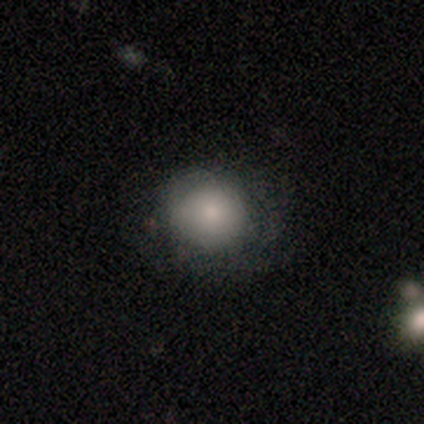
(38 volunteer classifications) smooth 63%, star or artifact 21%, featured or disk 16%. Down the decision tree: how rounded — round (83%); merging — none (63%).